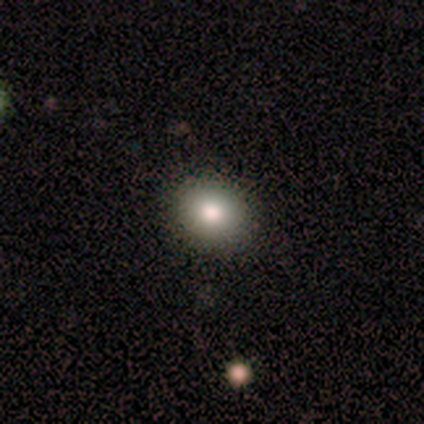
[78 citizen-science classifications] Volunteers were most divided on "merging": none: 49%, merger: 1%, minor disturbance: 0%, major disturbance: 0%. More confident: smooth or featured — smooth (90%); how rounded — round (77%).